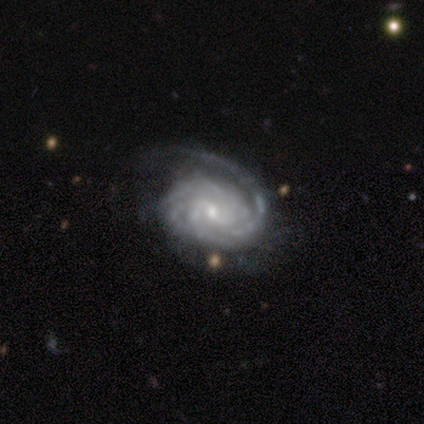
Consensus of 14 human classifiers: Smooth or featured? featured or disk (86%)
Edge-on disk? no (100%)
Bar? weak (58%)
Spiral arms? yes (100%)
Spiral winding? tight (83%)
Spiral arm count? 3 (33%)
Bulge size? small (75%)
Merging? none (83%)